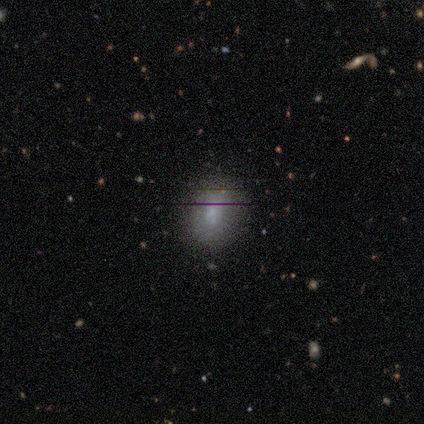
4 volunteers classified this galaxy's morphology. This appears to be a smooth galaxy with no disk features (75%) that is in between round and cigar-shaped (67%). Merging: none (75%).